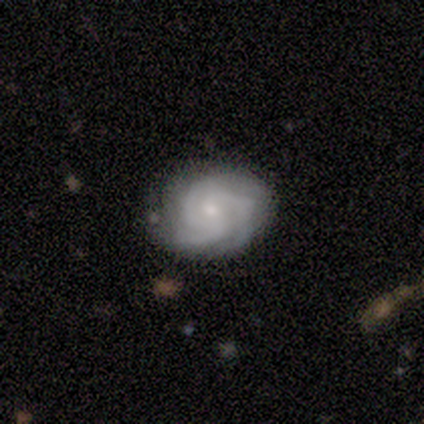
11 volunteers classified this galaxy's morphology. Smooth or featured?
  - featured or disk: 91% *
  - smooth: 9%
  - star or artifact: 0%
Edge-on disk?
  - no: 100% *
  - yes: 0%
Bar?
  - no: 80% *
  - weak: 20%
  - strong: 0%
Spiral arms?
  - yes: 100% *
  - no: 0%
Spiral winding?
  - tight: 70% *
  - medium: 30%
  - loose: 0%
Spiral arm count?
  - 3: 80% *
  - 4: 20%
  - 1: 0%
  - 2: 0%
  - more than 4: 0%
  - can't tell: 0%
Bulge size?
  - small: 70% *
  - moderate: 20%
  - large: 10%
  - dominant: 0%
  - none: 0%
Merging?
  - none: 64% *
  - minor disturbance: 36%
  - major disturbance: 0%
  - merger: 0%